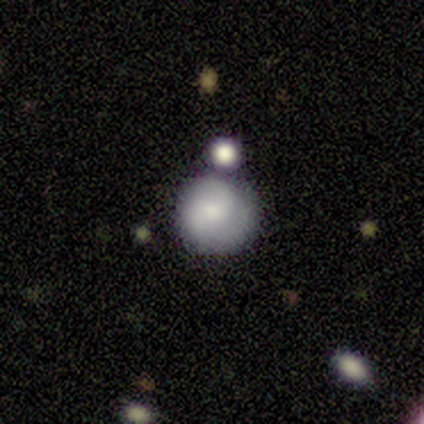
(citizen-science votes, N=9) smooth-or-featured: smooth: 56% | featured or disk: 22% | star or artifact: 22%
  how-rounded: round: 100% | in between: 0% | cigar-shaped: 0%
  merging: minor disturbance: 57% | none: 43% | major disturbance: 0% | merger: 0%